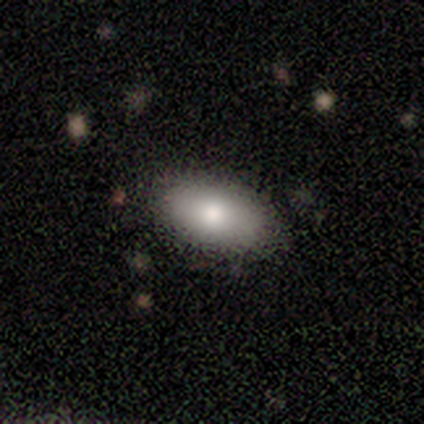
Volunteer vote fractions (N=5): This is clearly a smooth galaxy (80%). How rounded: clearly in between (100%). Merging: clearly none (80%).